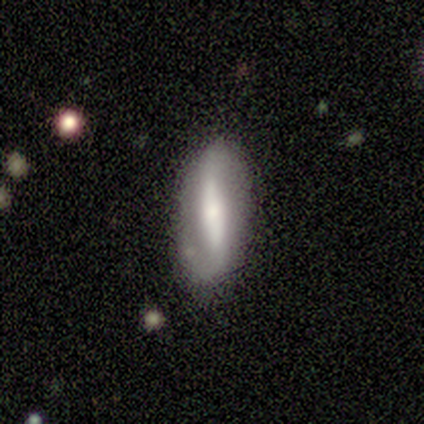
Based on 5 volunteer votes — Volunteers were most divided on "spiral winding" (2-way tie): tight: 50%, loose: 50%, medium: 0%. More confident: smooth or featured — featured or disk (100%); spiral arms — yes (100%); edge-on disk — no (80%); bulge size — small (75%); merging — minor disturbance (60%); bar — strong (50%); spiral arm count — 2 (50%).